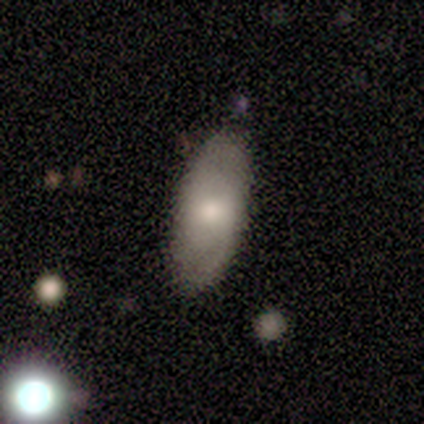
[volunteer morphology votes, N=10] type=smooth (80%); roundness=in between (100%); merging=none (80%).